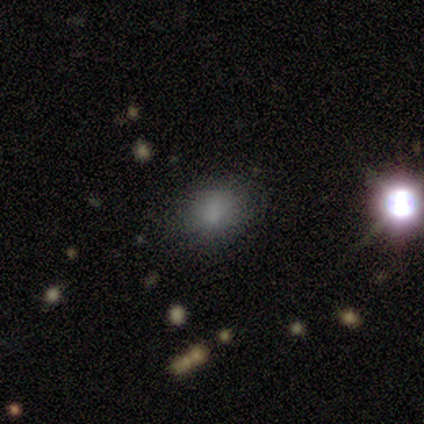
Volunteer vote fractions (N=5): smooth 60%, star or artifact 40%, featured or disk 0%. Down the decision tree: how rounded — round (67%); merging — none (100%).